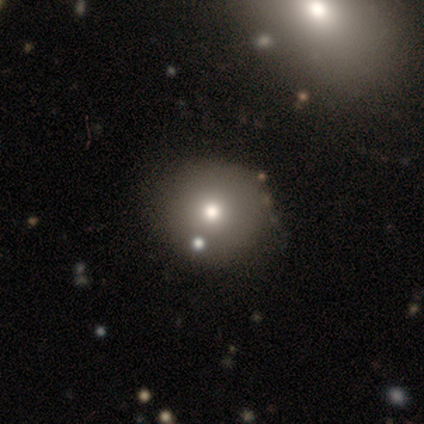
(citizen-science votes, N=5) Overall: smooth (60%; featured or disk 20%). How rounded: round (100%). Merging: none (100%).